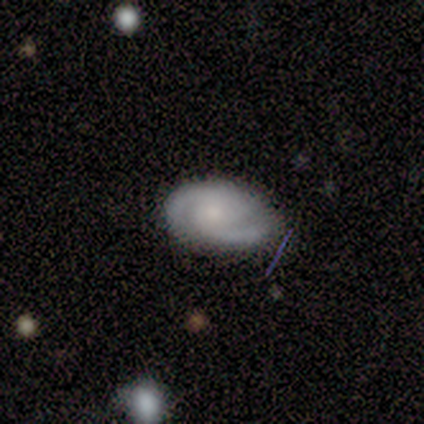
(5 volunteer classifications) Smooth or featured: smooth — 60% (featured or disk — 40%)
How rounded: in between — 67% (cigar-shaped — 33%)
Merging: none — 80% (minor disturbance — 20%)